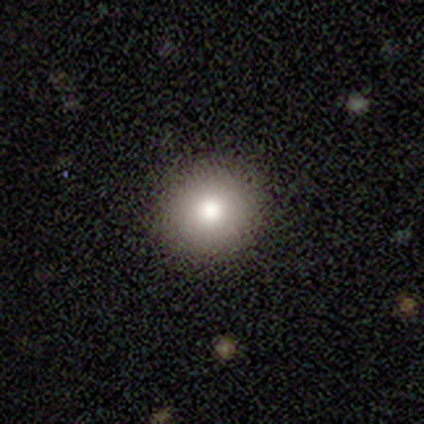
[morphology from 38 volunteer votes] Volunteers were most divided on "smooth or featured": smooth: 82%, featured or disk: 13%, star or artifact: 5%. More confident: merging — none (94%); how rounded — round (90%).